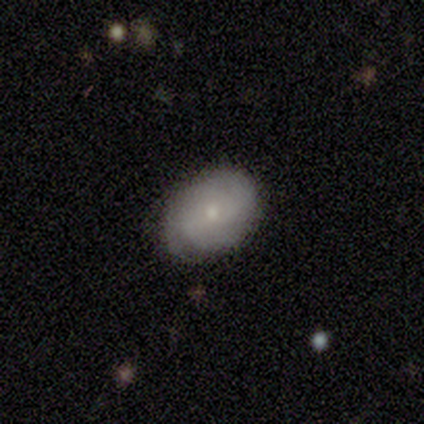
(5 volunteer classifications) Q: Smooth or featured?
A: featured or disk (60%); runner-up: smooth (40%)
Q: Edge-on disk?
A: no (67%); runner-up: yes (33%)
Q: Bar?
A: weak (50%); tied with: no (50%)
Q: Spiral arms?
A: yes (100%)
Q: Spiral winding?
A: tight (50%); tied with: medium (50%)
Q: Spiral arm count?
A: 2 (50%); tied with: can't tell (50%)
Q: Bulge size?
A: small (100%)
Q: Merging?
A: none (40%); tied with: minor disturbance (40%)